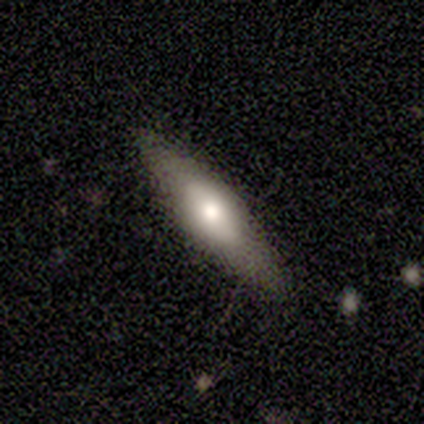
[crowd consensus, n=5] Volunteers were most divided on "smooth or featured": smooth: 60%, featured or disk: 40%, star or artifact: 0%. More confident: merging — none (80%); how rounded — cigar-shaped (67%).